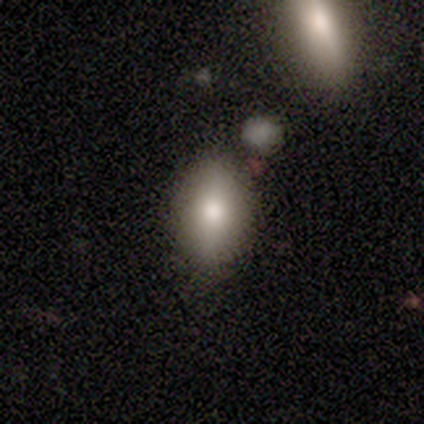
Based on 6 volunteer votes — This is clearly a smooth galaxy (83%). How rounded: clearly in between (100%). Merging: clearly none (83%).